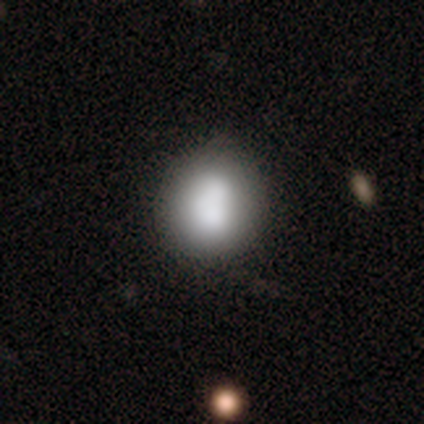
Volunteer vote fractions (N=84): Q: Smooth or featured?
A: smooth (75%); runner-up: featured or disk (17%)
Q: How rounded?
A: round (76%); runner-up: in between (24%)
Q: Merging?
A: none (61%); runner-up: minor disturbance (25%)